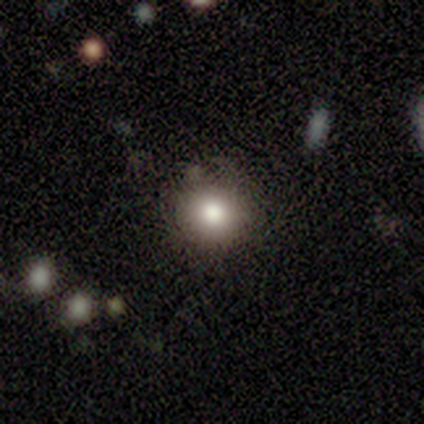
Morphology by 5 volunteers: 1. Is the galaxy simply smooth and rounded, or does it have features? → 60% smooth, 20% featured or disk, 20% star or artifact.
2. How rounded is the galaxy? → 100% round, 0% in between, 0% cigar-shaped.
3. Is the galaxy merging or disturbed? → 100% none, 0% minor disturbance, 0% major disturbance, 0% merger.